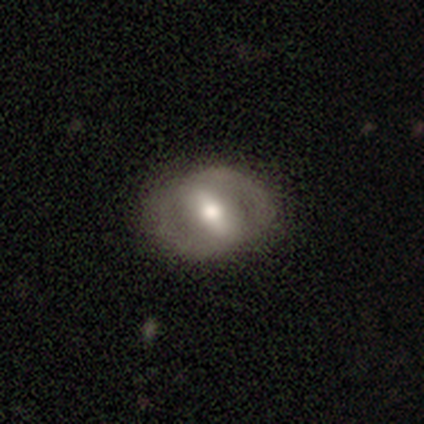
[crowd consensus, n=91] This appears to be a featured or disk galaxy (68%) with a strong bar (54%), 2 (94%) tight (45%) spiral arms (53%) and a moderate central bulge (73%). Merging: none (81%).